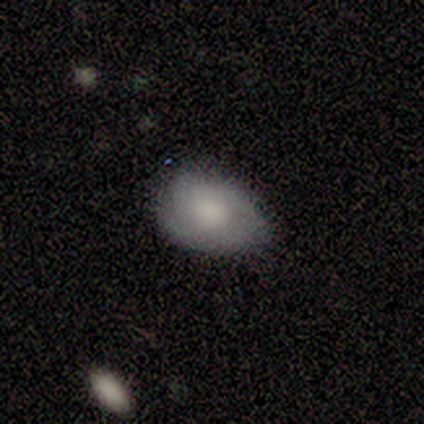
featured or disk 60%, smooth 40%, star or artifact 0%. Down the decision tree: edge-on disk — no (100%); bar — no (100%); spiral arms — no (67%); bulge size — moderate (67%); merging — minor disturbance (80%).